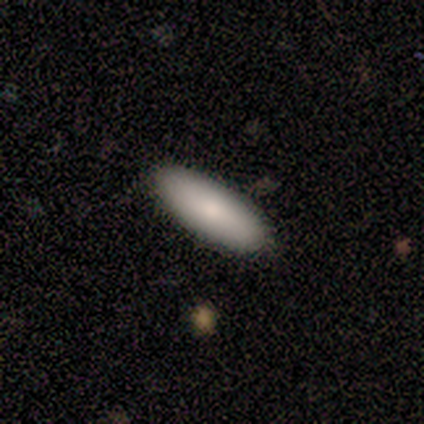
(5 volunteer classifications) Smooth or featured? 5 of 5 (100%) said smooth. How rounded? 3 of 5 (60%) said in between. Merging? 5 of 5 (100%) said none.